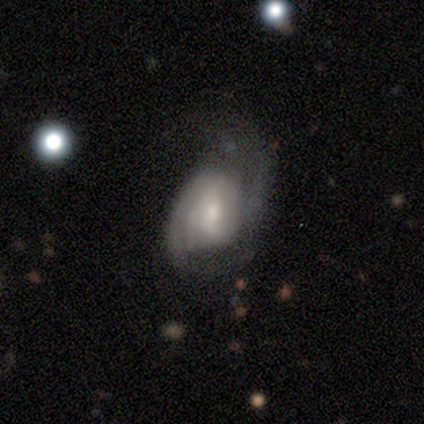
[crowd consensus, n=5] Smooth or featured?
  - featured or disk: 60% *
  - smooth: 20%
  - star or artifact: 20%
Edge-on disk?
  - no: 100% *
  - yes: 0%
Bar?
  - weak: 67% *
  - no: 33%
  - strong: 0%
Spiral arms?
  - yes: 100% *
  - no: 0%
Spiral winding?
  - medium: 67% *
  - tight: 33%
  - loose: 0%
Spiral arm count?
  - can't tell: 67% *
  - 2: 33%
  - 1: 0%
  - 3: 0%
  - 4: 0%
  - more than 4: 0%
Bulge size?
  - moderate: 67% *
  - small: 33%
  - dominant: 0%
  - large: 0%
  - none: 0%
Merging?
  - none: 50% * (tied)
  - minor disturbance: 50% * (tied)
  - major disturbance: 0%
  - merger: 0%